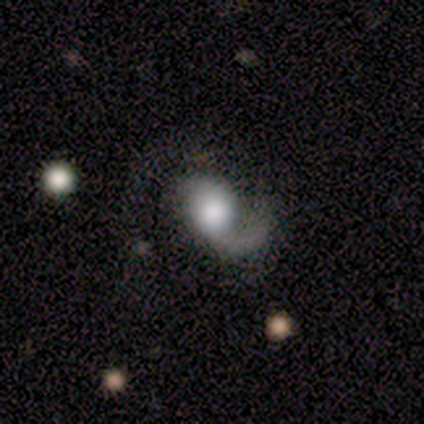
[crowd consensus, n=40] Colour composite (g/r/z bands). It shows a featured or disk galaxy (72%) with no bar (83%), 1 (62%) loose (54%) spiral arms (90%) and a large central bulge (48%). Merging: major disturbance (29%).